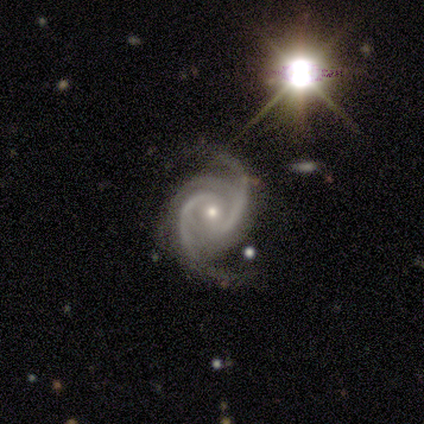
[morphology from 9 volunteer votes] smooth-or-featured: featured or disk: 78% | star or artifact: 22% | smooth: 0%
  disk-edge-on: no: 100% | yes: 0%
    bar: no: 86% | weak: 14% | strong: 0%
    has-spiral-arms: yes: 100% | no: 0%
      spiral-winding: tight: 57% | medium: 43% | loose: 0%
      spiral-arm-count: 3: 57% | 2: 29% | 4: 14% | 1: 0% | more than 4: 0% | can't tell: 0%
    bulge-size: moderate: 57% | small: 43% | dominant: 0% | large: 0% | none: 0%
  merging: none: 86% | minor disturbance: 14% | major disturbance: 0% | merger: 0%